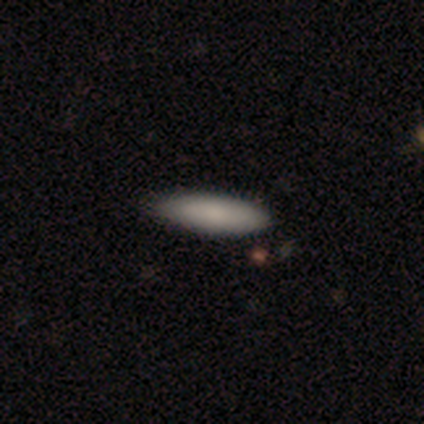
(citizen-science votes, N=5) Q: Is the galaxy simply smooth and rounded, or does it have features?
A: smooth — 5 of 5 (100%).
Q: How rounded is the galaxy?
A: in between — 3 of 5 (60%).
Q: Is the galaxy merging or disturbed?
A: none — 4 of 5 (80%).